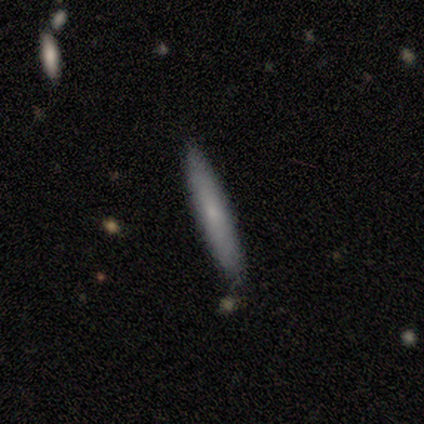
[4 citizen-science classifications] This is clearly a smooth galaxy (100%). How rounded: clearly cigar-shaped (100%). Merging: clearly none (100%).